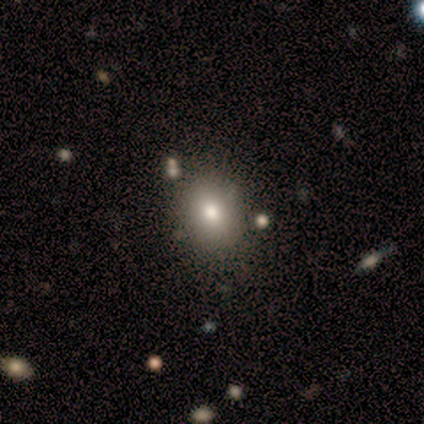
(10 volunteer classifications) Volunteers were most divided on "how rounded" (2-way tie): round: 50%, in between: 50%, cigar-shaped: 0%. More confident: merging — none (100%); smooth or featured — smooth (80%).